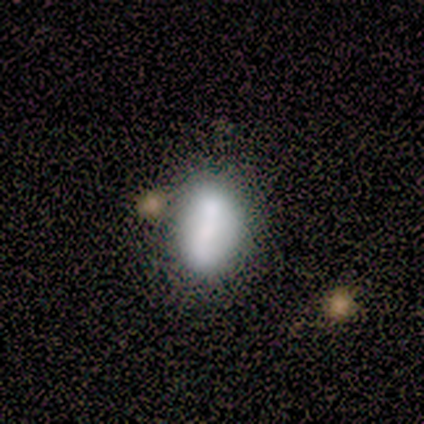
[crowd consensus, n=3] Volunteers were most divided on "how rounded": in between: 67%, cigar-shaped: 33%, round: 0%. More confident: smooth or featured — smooth (100%); merging — minor disturbance (67%).